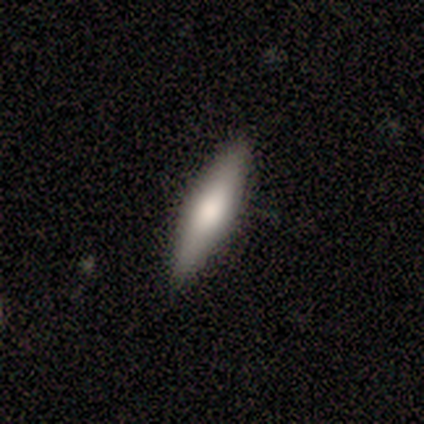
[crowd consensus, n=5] smooth 60%, featured or disk 40%, star or artifact 0%. Down the decision tree: how rounded — cigar-shaped (67%); merging — none (60%).